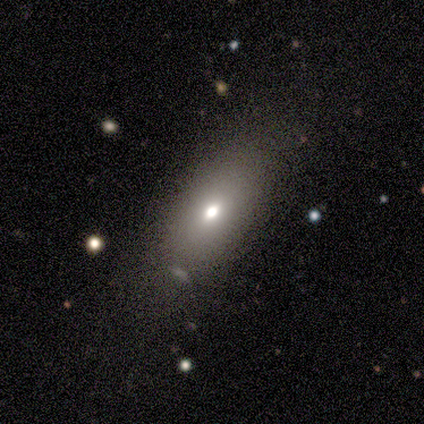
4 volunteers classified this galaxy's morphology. Smooth or featured?
  - smooth: 100% *
  - featured or disk: 0%
  - star or artifact: 0%
How rounded?
  - in between: 100% *
  - round: 0%
  - cigar-shaped: 0%
Merging?
  - none: 100% *
  - minor disturbance: 0%
  - major disturbance: 0%
  - merger: 0%